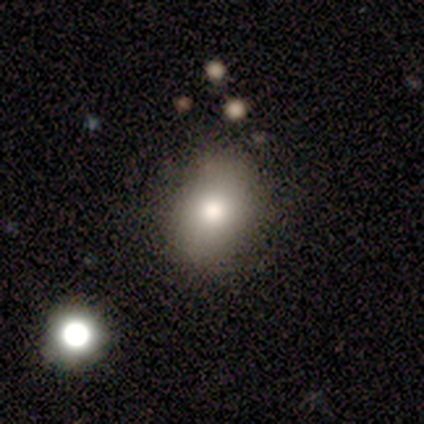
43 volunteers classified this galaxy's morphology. Q: Smooth or featured?
A: smooth (74%); runner-up: star or artifact (14%)
Q: How rounded?
A: in between (53%); runner-up: round (44%)
Q: Merging?
A: none (73%); runner-up: minor disturbance (16%)